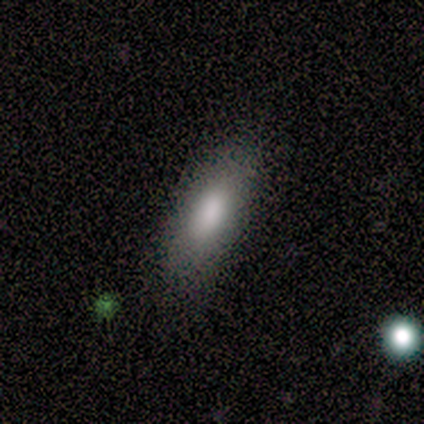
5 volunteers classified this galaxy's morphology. smooth_or_featured: smooth (p=0.80) [alt: featured or disk p=0.20]
how_rounded: in between (p=0.75) [alt: cigar-shaped p=0.25]
merging: none (p=1.00)